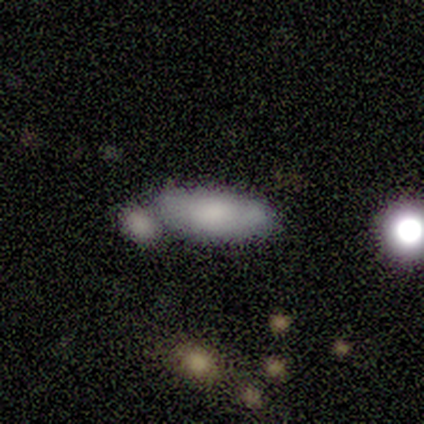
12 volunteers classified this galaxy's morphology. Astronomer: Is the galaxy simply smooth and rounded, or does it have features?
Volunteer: smooth — 67%.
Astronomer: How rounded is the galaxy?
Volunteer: in between — 88%.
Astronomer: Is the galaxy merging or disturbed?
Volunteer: none — 60%.